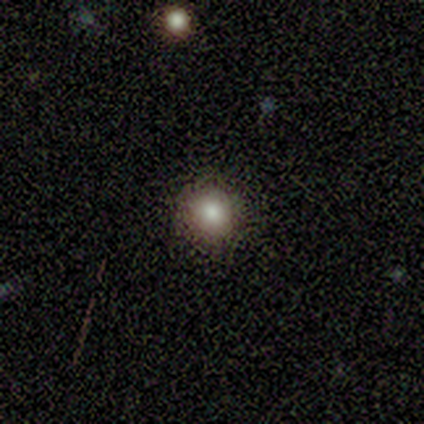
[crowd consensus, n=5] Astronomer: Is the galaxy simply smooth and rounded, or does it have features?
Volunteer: smooth — 80%.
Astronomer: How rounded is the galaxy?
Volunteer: round — 100%.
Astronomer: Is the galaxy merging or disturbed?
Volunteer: none — 100%.